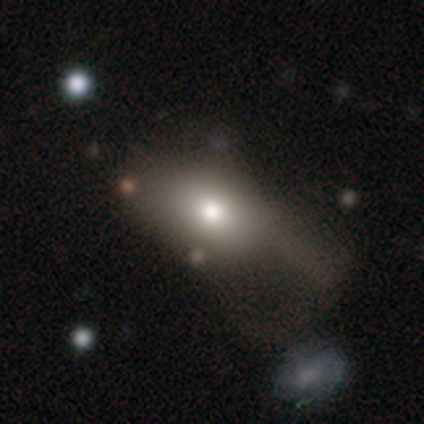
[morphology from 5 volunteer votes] smooth-or-featured: smooth: 100% | featured or disk: 0% | star or artifact: 0%
  how-rounded: in between: 80% | round: 20% | cigar-shaped: 0%
  merging: major disturbance: 40% (tied) | merger: 40% (tied) | none: 20% | minor disturbance: 0%